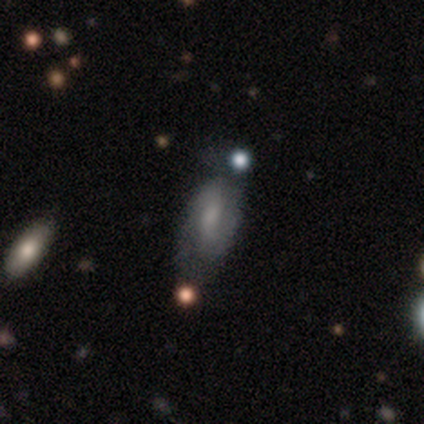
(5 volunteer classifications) Overall: featured or disk (60%; smooth 40%). Edge-on disk: no (100%). Bar: no (67%; weak 33%). Spiral arms: yes (67%; no 33%). Spiral arm count: 2 (100%). Spiral winding: medium (50%, tied with loose). Bulge size: large (33%, tied with small and none). Merging: none (60%; merger 40%).